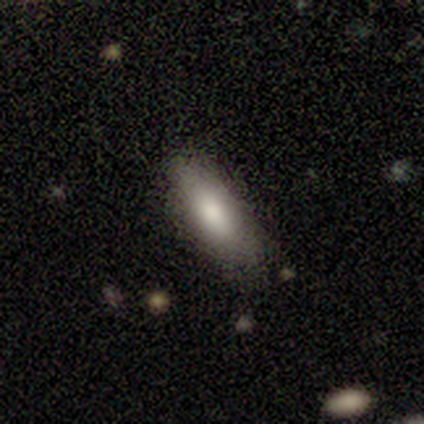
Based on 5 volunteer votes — smooth_or_featured: smooth (p=1.00)
how_rounded: in between (p=0.80) [alt: cigar-shaped p=0.20]
merging: minor disturbance (p=0.60) [alt: none p=0.40]